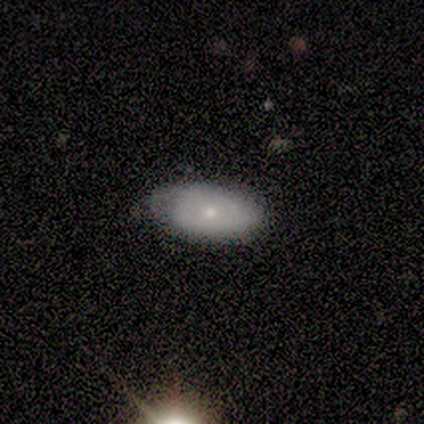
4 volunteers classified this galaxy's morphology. type=smooth (75%); roundness=in between (100%); merging=none (100%).